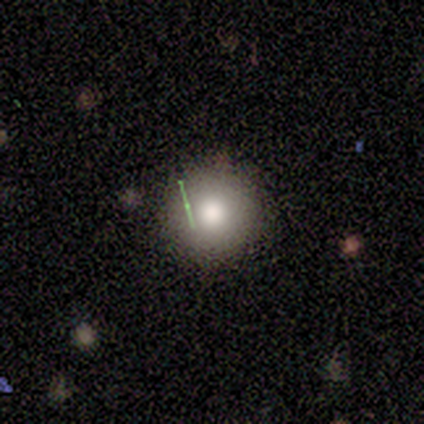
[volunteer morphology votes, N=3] Volunteers were most divided on "how rounded": round: 67%, in between: 33%, cigar-shaped: 0%. More confident: smooth or featured — smooth (100%); merging — none (100%).